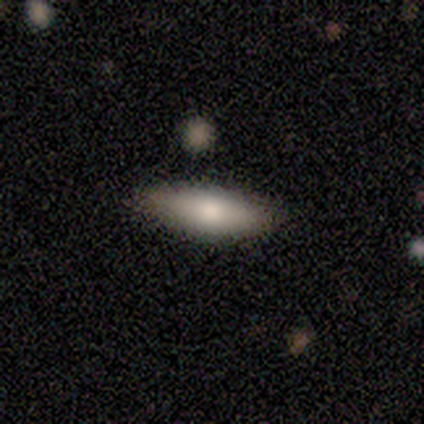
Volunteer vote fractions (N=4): Q: Smooth or featured?
A: smooth (100%)
Q: How rounded?
A: cigar-shaped (75%); runner-up: in between (25%)
Q: Merging?
A: none (100%)